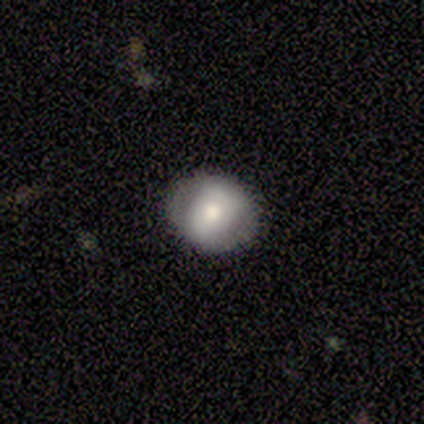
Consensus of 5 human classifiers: Overall: smooth (60%; featured or disk 40%). How rounded: round (67%; in between 33%). Merging: none (100%).